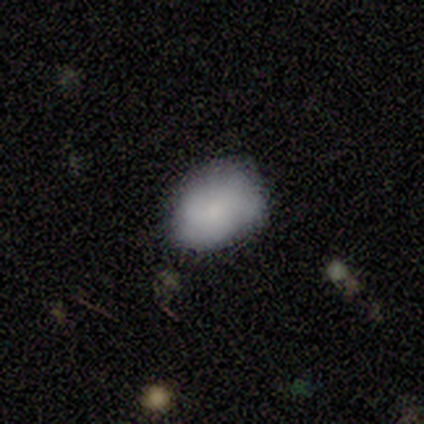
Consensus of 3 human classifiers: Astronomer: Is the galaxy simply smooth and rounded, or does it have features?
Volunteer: smooth — 100%.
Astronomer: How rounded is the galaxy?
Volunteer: in between — 100%.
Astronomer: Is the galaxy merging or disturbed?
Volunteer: minor disturbance — 67%.